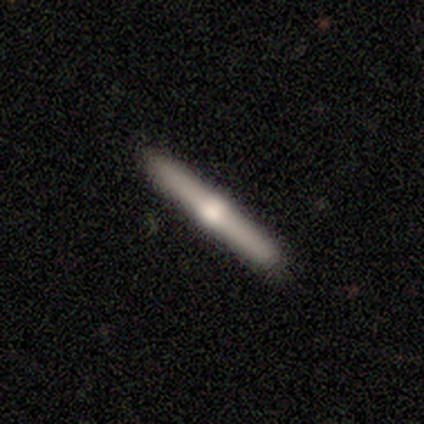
Smooth or featured?
  - featured or disk: 80% *
  - smooth: 20%
  - star or artifact: 0%
Edge-on disk?
  - yes: 100% *
  - no: 0%
Edge-on bulge?
  - rounded: 100% *
  - boxy: 0%
  - none: 0%
Merging?
  - none: 100% *
  - minor disturbance: 0%
  - major disturbance: 0%
  - merger: 0%